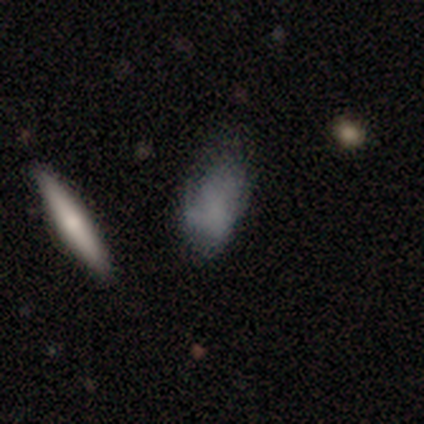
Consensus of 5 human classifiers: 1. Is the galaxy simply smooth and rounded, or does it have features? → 60% smooth, 40% featured or disk, 0% star or artifact.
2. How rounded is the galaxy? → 100% in between, 0% round, 0% cigar-shaped.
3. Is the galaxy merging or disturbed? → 100% none, 0% minor disturbance, 0% major disturbance, 0% merger.